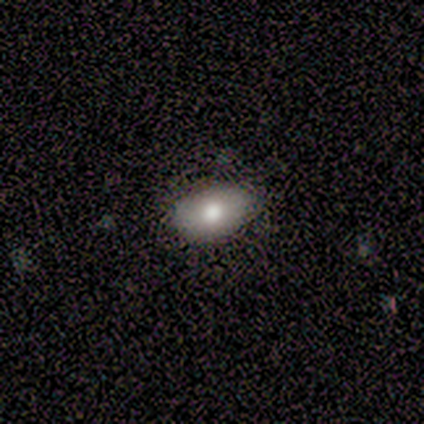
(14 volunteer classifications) This appears to be a smooth galaxy with no disk features (79%) that is in between round and cigar-shaped (91%). Merging: none (71%).